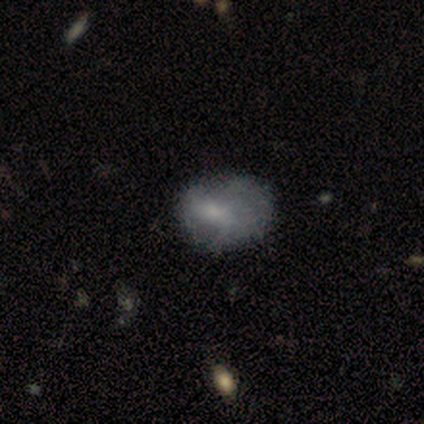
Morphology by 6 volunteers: Smooth or featured: smooth — 100%
How rounded: in between — 67% (round — 33%)
Merging: none — 83% (minor disturbance — 17%)